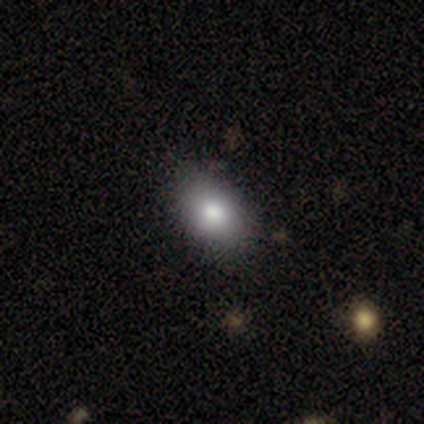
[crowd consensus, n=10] This is clearly a smooth galaxy (80%). How rounded: likely in between (75%). Merging: likely none (78%).